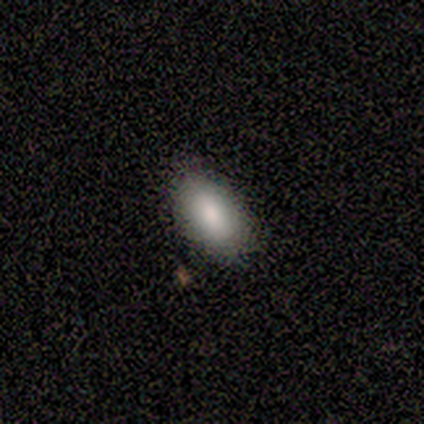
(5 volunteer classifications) Smooth or featured?
  - smooth: 100% *
  - featured or disk: 0%
  - star or artifact: 0%
How rounded?
  - in between: 100% *
  - round: 0%
  - cigar-shaped: 0%
Merging?
  - none: 80% *
  - minor disturbance: 20%
  - major disturbance: 0%
  - merger: 0%